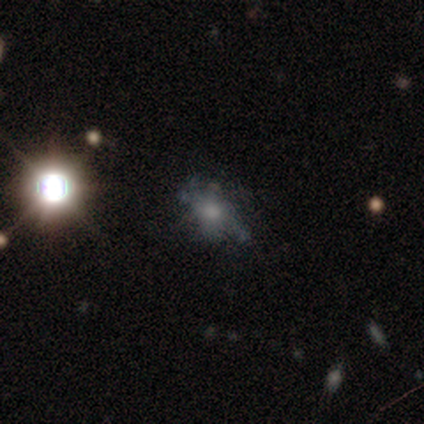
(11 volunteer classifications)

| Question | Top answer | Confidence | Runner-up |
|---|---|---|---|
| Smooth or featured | featured or disk | 64% | star or artifact (27%) |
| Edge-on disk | no | 100% | — |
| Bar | no | 100% | — |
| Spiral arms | no | 57% | yes (43%) |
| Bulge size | small | 43% | moderate (29%) |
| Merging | none | 75% | minor disturbance (12%) |